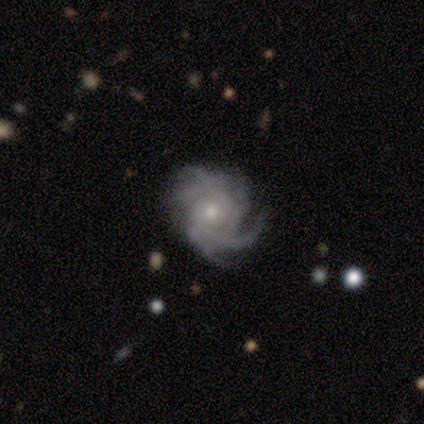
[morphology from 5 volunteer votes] Volunteers were most divided on "spiral winding" (2-way tie): tight: 40%, medium: 40%, loose: 20%. More confident: smooth or featured — featured or disk (100%); edge-on disk — no (100%); bar — no (100%); spiral arms — yes (100%); bulge size — small (60%); merging — none (60%); spiral arm count — more than 4 (60%).